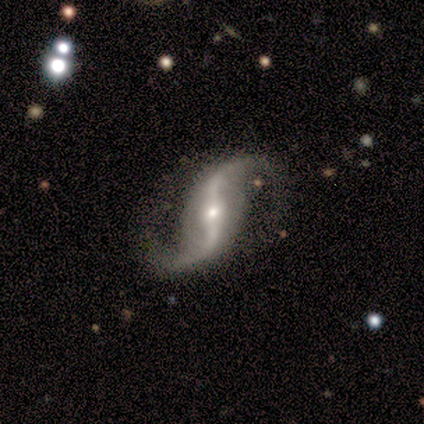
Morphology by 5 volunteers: smooth-or-featured: featured or disk: 100% | smooth: 0% | star or artifact: 0%
  disk-edge-on: no: 100% | yes: 0%
    bar: strong: 80% | weak: 20% | no: 0%
    has-spiral-arms: yes: 100% | no: 0%
      spiral-winding: loose: 60% | medium: 40% | tight: 0%
      spiral-arm-count: 2: 100% | 1: 0% | 3: 0% | 4: 0% | more than 4: 0% | can't tell: 0%
    bulge-size: small: 80% | moderate: 20% | dominant: 0% | large: 0% | none: 0%
  merging: none: 100% | minor disturbance: 0% | major disturbance: 0% | merger: 0%